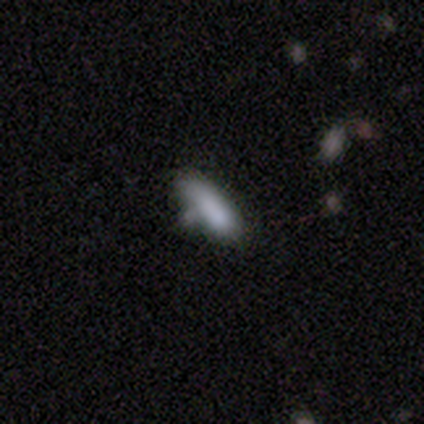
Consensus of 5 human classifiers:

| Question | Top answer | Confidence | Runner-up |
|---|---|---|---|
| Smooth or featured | smooth | 100% | — |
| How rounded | cigar-shaped | 60% | in between (40%) |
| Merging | none | 60% | minor disturbance (20%) |